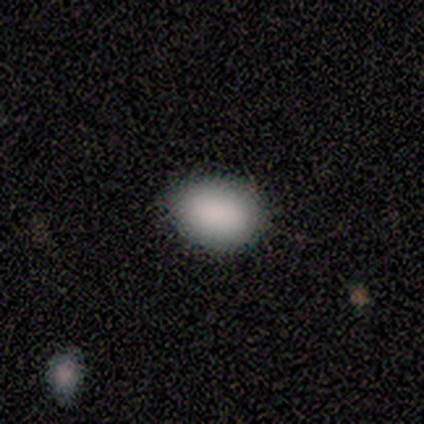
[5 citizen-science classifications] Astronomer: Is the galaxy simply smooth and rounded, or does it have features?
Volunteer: smooth — 100%.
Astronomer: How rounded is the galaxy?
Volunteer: in between — 80%.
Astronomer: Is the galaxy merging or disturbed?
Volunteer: none — 100%.